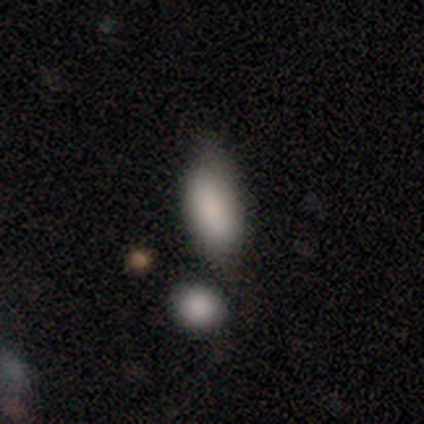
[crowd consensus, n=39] This is clearly a smooth galaxy (90%). How rounded: clearly in between (91%). Merging: possibly none (51%).